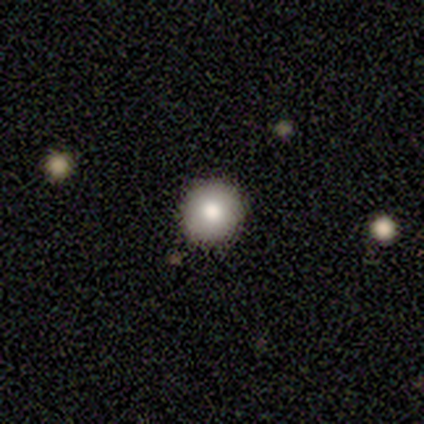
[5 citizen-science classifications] Overall: smooth (80%). How rounded: round (100%). Merging: none (100%).